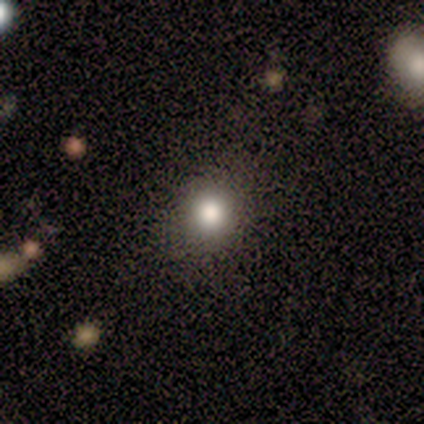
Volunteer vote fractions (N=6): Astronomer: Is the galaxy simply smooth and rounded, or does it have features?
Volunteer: smooth — 100%.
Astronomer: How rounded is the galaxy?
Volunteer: round — 83%.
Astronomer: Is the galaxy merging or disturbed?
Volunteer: none — 50%, tied with minor disturbance at 50%.